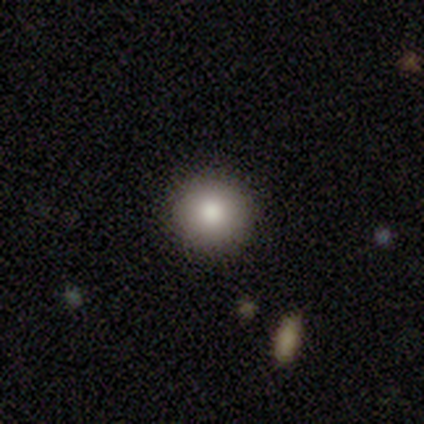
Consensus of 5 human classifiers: A smooth galaxy with no disk features (80%) that is round (75%).

Vote fractions:
- Smooth or featured? smooth: 80% / featured or disk: 20% / star or artifact: 0%
- How rounded? round: 75% / in between: 25% / cigar-shaped: 0%
- Merging? none: 80% / minor disturbance: 20% / major disturbance: 0% / merger: 0%